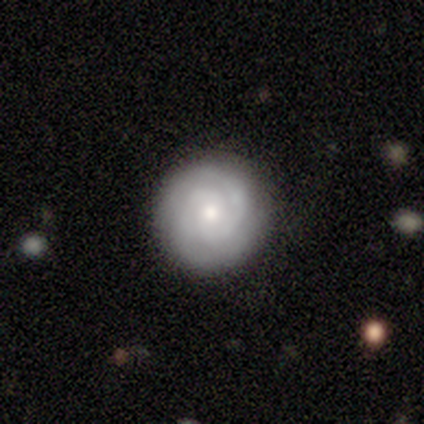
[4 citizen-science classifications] Smooth or featured? featured or disk (75%)
Edge-on disk? no (100%)
Bar? weak (67%)
Spiral arms? yes (100%)
Spiral winding? tight (67%)
Spiral arm count? 2 (67%)
Bulge size? small (67%)
Merging? none (100%)